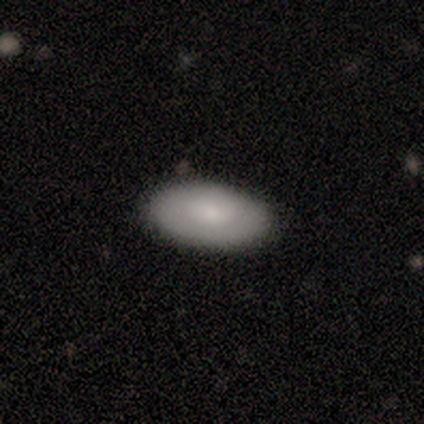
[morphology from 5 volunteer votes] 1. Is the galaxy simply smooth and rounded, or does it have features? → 60% smooth, 40% featured or disk, 0% star or artifact.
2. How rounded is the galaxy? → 100% in between, 0% round, 0% cigar-shaped.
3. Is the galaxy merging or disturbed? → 100% none, 0% minor disturbance, 0% major disturbance, 0% merger.